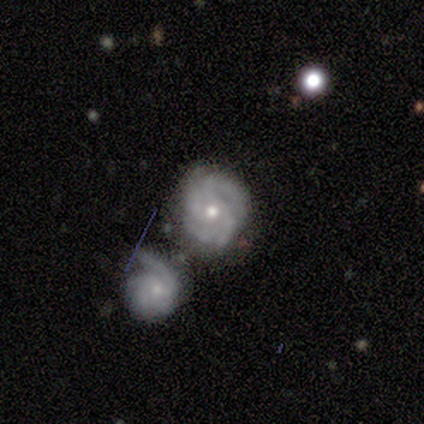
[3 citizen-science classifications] Overall: featured or disk (100%). Edge-on disk: no (100%). Bar: no (67%; weak 33%). Spiral arms: yes (100%). Spiral arm count: 2 (33%, tied with 4 and can't tell). Spiral winding: tight (67%; medium 33%). Bulge size: small (67%; moderate 33%). Merging: none (67%; minor disturbance 33%).